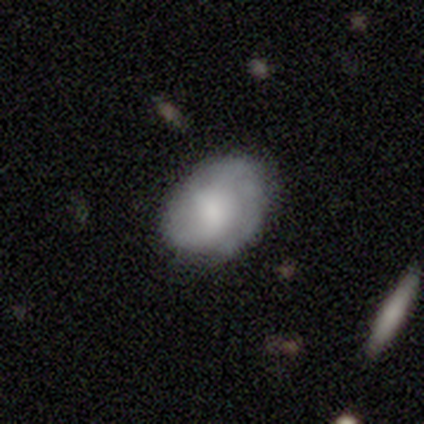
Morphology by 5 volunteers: This appears to be a featured or disk galaxy (80%) with a weak bar (75%), 2 (50%, tied with can't tell) tight (100%) spiral arms (50%, tied with no) and a dominant central bulge (25%, tied with large, small and none). Merging: none (60%).